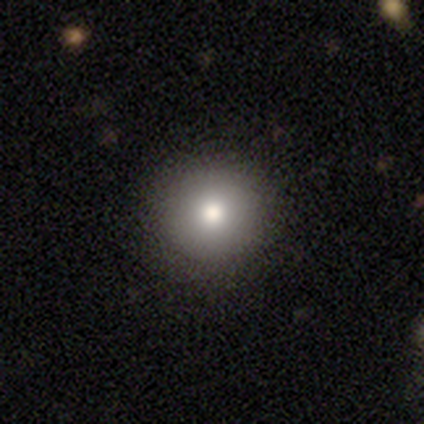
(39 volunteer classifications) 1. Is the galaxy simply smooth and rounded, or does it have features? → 85% smooth, 10% featured or disk, 5% star or artifact.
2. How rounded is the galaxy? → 100% round, 0% in between, 0% cigar-shaped.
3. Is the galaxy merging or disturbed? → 81% none, 14% minor disturbance, 3% major disturbance, 3% merger.